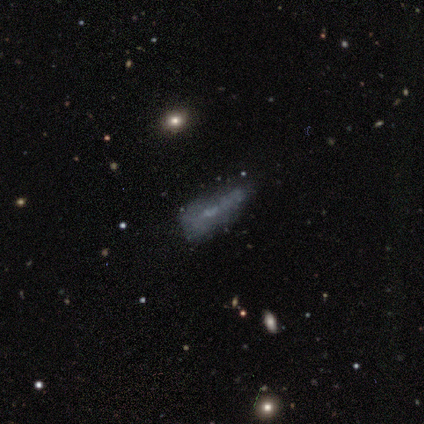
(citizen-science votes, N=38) Morphology: type=featured or disk (45%); edge-on=no (88%); bar=no (80%); spiral arms=no (100%); bulge=none (80%); merging=none (41%).